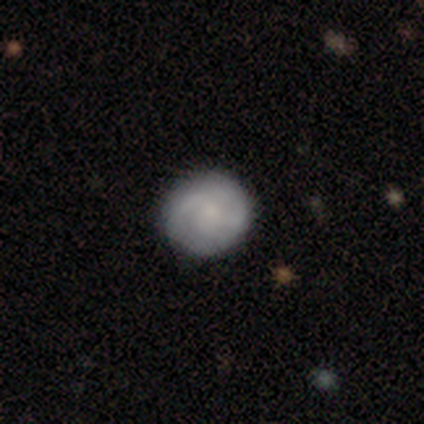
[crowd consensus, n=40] smooth-or-featured: smooth: 52% | featured or disk: 40% | star or artifact: 8%
  how-rounded: round: 95% | in between: 5% | cigar-shaped: 0%
  merging: none: 89% | minor disturbance: 11% | major disturbance: 0% | merger: 0%